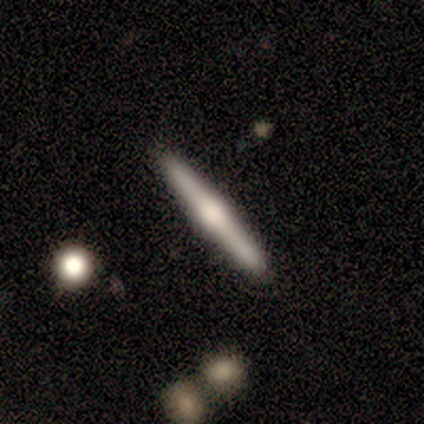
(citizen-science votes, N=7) Morphology: type=smooth (57%); roundness=in between (50%, tied with cigar-shaped); merging=none (71%).